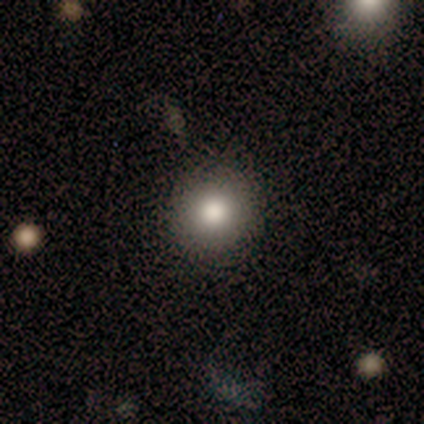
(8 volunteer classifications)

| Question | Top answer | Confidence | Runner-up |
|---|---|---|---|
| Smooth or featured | smooth | 75% | featured or disk (25%) |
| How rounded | round | 100% | — |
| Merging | none | 88% | major disturbance (12%) |